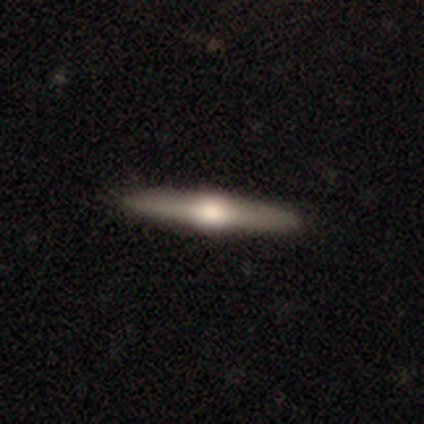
Smooth or featured? featured or disk (83%)
Edge-on disk? yes (100%)
Edge-on bulge? rounded (98%)
Merging? none (52%)